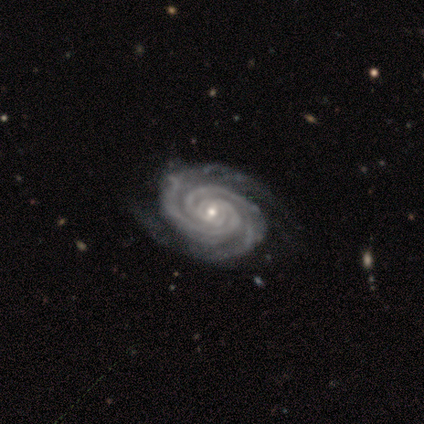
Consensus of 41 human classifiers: Volunteers were most divided on "bar": no: 54%, weak: 35%, strong: 11%. More confident: edge-on disk — no (100%); spiral arms — yes (100%); smooth or featured — featured or disk (90%); spiral winding — tight (86%); spiral arm count — 2 (70%); bulge size — small (65%); merging — none (51%).